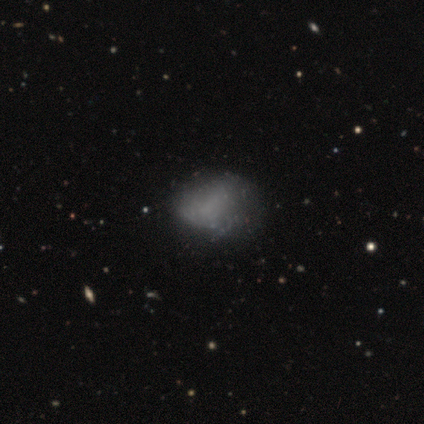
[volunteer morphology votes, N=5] Q: Smooth or featured?
A: featured or disk (60%); runner-up: smooth (20%)
Q: Edge-on disk?
A: no (100%)
Q: Bar?
A: no (100%)
Q: Spiral arms?
A: no (100%)
Q: Bulge size?
A: none (100%)
Q: Merging?
A: none (75%); runner-up: minor disturbance (25%)